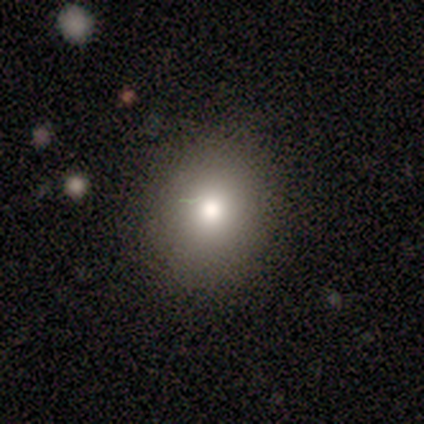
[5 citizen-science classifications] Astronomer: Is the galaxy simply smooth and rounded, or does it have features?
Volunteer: smooth — 100%.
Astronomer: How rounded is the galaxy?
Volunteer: round — 80%.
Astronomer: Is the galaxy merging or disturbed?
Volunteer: none — 100%.